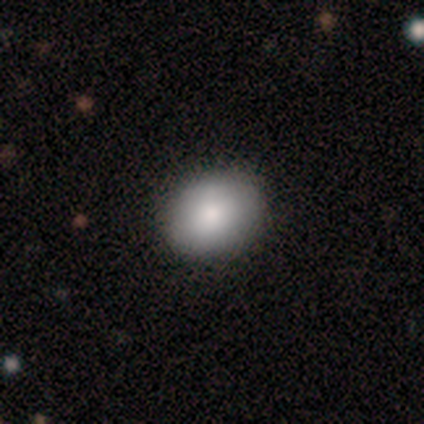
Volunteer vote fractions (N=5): Smooth or featured? smooth (80%)
How rounded? in between (100%)
Merging? none (80%)